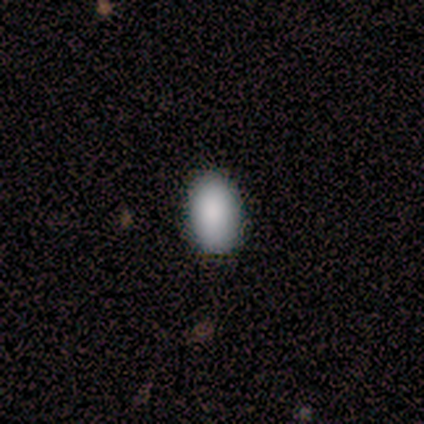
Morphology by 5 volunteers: This is clearly a smooth galaxy (80%). How rounded: clearly in between (100%). Merging: likely none (75%).